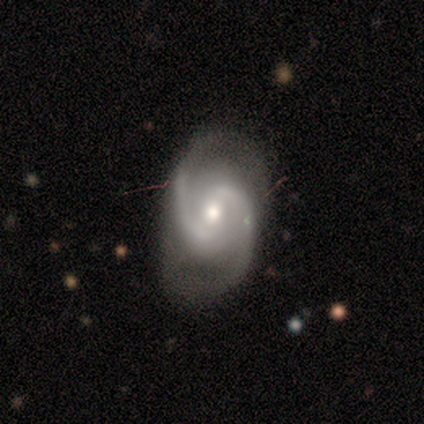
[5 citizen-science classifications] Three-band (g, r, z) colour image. It shows a featured or disk galaxy (100%) with a strong bar (40%, tied with weak), 2 (80%) tight (40%, tied with medium) spiral arms (100%) and a moderate central bulge (100%). Merging: none (80%).